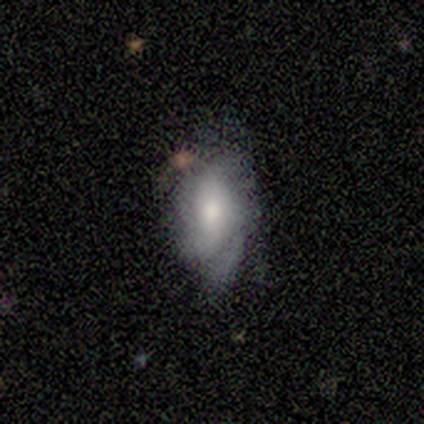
A featured or disk galaxy (60%) with a weak bar (67%), tight (33%, tied with medium and loose) spiral arms (100%) and a moderate central bulge (100%).

Vote fractions:
- Smooth or featured? featured or disk: 60% / smooth: 40% / star or artifact: 0%
- Edge-on disk? no: 100% / yes: 0%
- Bar? weak: 67% / no: 33% / strong: 0%
- Spiral arms? yes: 100% / no: 0%
- Spiral winding? tight: 33% (tied) / medium: 33% (tied) / loose: 33% (tied)
- Spiral arm count? can't tell: 67% / 1: 33% / 2: 0% / 3: 0% / 4: 0% / more than 4: 0%
- Bulge size? moderate: 100% / dominant: 0% / large: 0% / small: 0% / none: 0%
- Merging? minor disturbance: 80% / none: 20% / major disturbance: 0% / merger: 0%